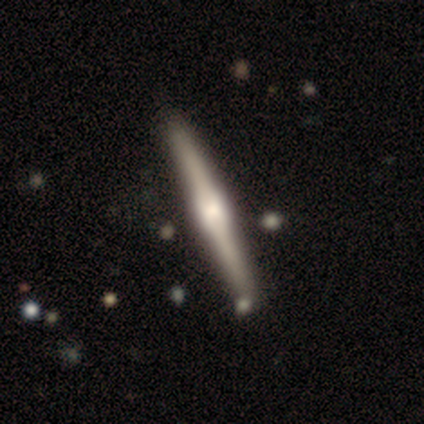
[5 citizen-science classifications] featured or disk 80%, smooth 20%, star or artifact 0%. Down the decision tree: edge-on disk — yes (100%); edge-on bulge — rounded (75%); merging — none (100%).